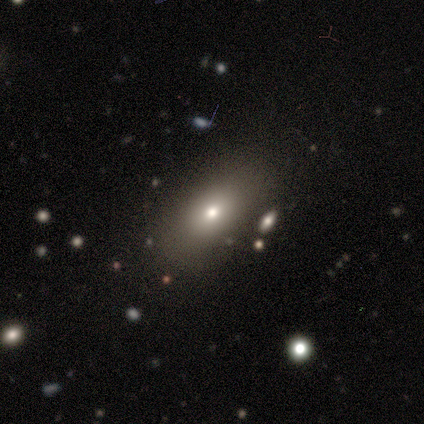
smooth-or-featured: smooth: 80% | star or artifact: 20% | featured or disk: 0%
  how-rounded: in between: 100% | round: 0% | cigar-shaped: 0%
  merging: none: 100% | minor disturbance: 0% | major disturbance: 0% | merger: 0%